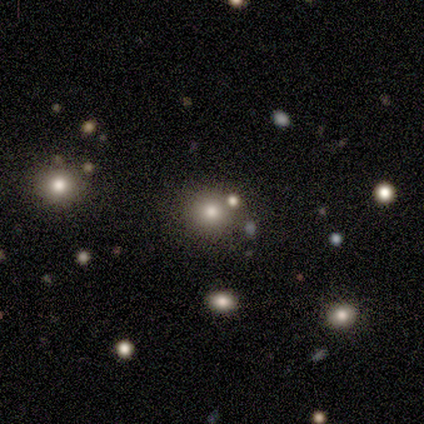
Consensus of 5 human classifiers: Smooth or featured: star or artifact — 80% (smooth — 20%)